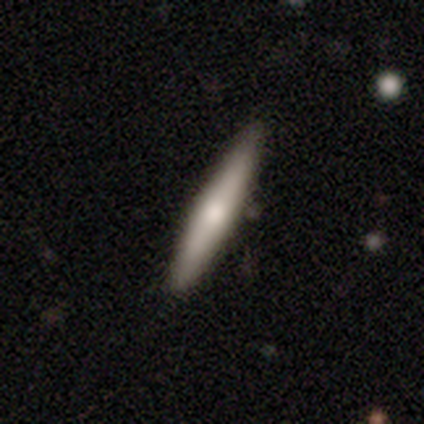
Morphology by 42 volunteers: smooth 57%, featured or disk 36%, star or artifact 7%. Down the decision tree: how rounded — cigar-shaped (100%); merging — none (90%).